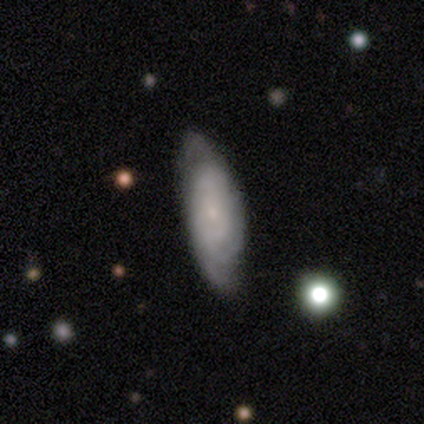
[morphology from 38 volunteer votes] smooth-or-featured: featured or disk: 79% | smooth: 21% | star or artifact: 0%
  disk-edge-on: no: 90% | yes: 10%
    bar: no: 85% | weak: 15% | strong: 0%
    has-spiral-arms: yes: 93% | no: 7%
      spiral-winding: tight: 64% | medium: 28% | loose: 8%
      spiral-arm-count: can't tell: 72% | 2: 12% | 3: 12% | 4: 4% | 1: 0% | more than 4: 0%
    bulge-size: small: 74% | moderate: 15% | none: 11% | dominant: 0% | large: 0%
  merging: none: 42% | minor disturbance: 11% | merger: 8% | major disturbance: 5%